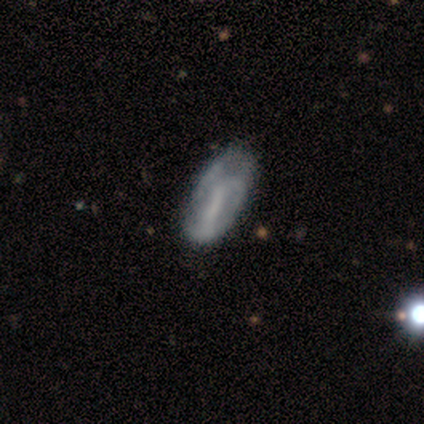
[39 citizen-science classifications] Smooth or featured: featured or disk — 62% (smooth — 36%)
Edge-on disk: no — 100%
Bar: no — 38% (strong — 33%)
Spiral arms: yes — 54% (no — 46%)
Spiral winding: tight — 38% (tied with loose — 38%)
Spiral arm count: 2 — 38% (can't tell — 31%)
Bulge size: none — 67% (small — 25%)
Merging: none — 34% (minor disturbance — 21%)